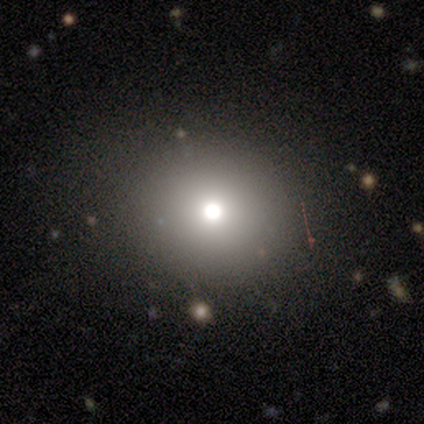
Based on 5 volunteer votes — Smooth or featured? 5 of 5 (100%) said smooth. How rounded? 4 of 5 (80%) said round. Merging? 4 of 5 (80%) said none.